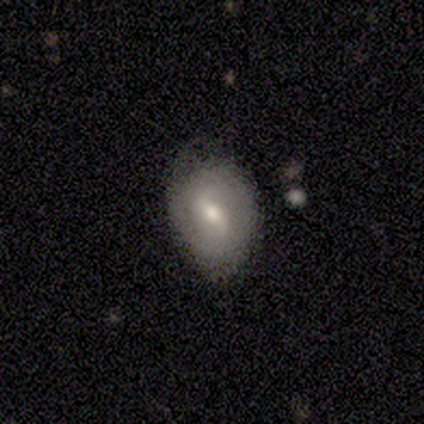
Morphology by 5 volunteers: Smooth or featured: featured or disk — 60% (smooth — 40%)
Edge-on disk: no — 100%
Bar: weak — 67% (strong — 33%)
Spiral arms: no — 67% (yes — 33%)
Bulge size: moderate — 100%
Merging: none — 80% (minor disturbance — 20%)